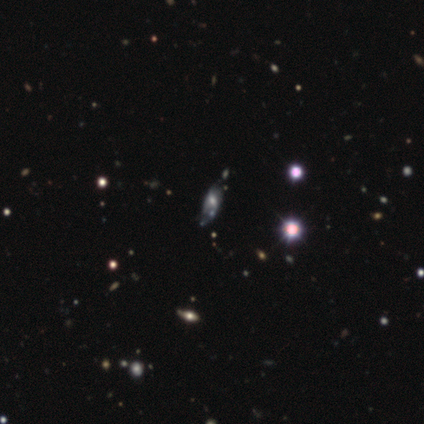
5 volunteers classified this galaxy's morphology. smooth_or_featured: smooth (p=0.40) [tied with: star or artifact p=0.40]
how_rounded: in between (p=1.00)
merging: none (p=0.67) [alt: merger p=0.33]